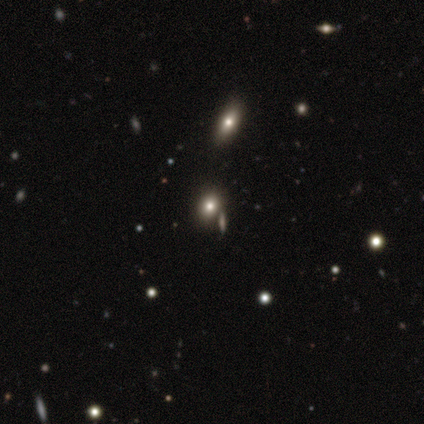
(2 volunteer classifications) Smooth or featured? star or artifact (100%)